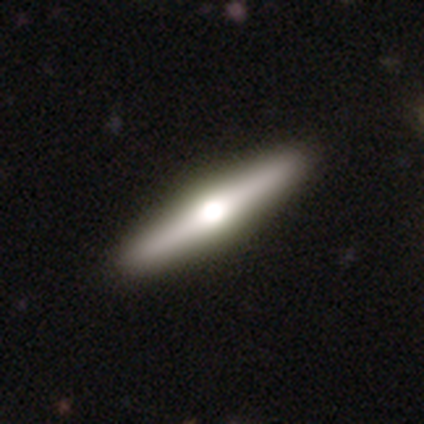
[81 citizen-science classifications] Smooth or featured? 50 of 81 (62%) said featured or disk. Edge-on disk? 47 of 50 (94%) said yes. Edge-on bulge? 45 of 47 (96%) said rounded. Merging? 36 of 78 (46%) said none.